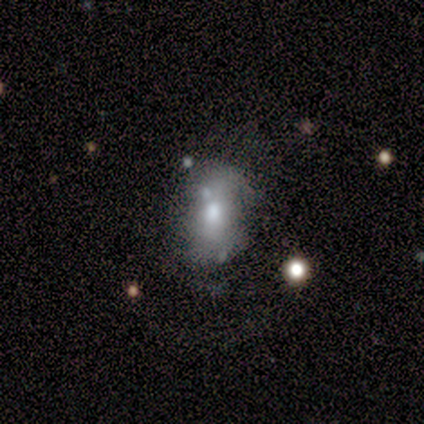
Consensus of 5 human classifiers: featured or disk 60%, smooth 40%, star or artifact 0%. Down the decision tree: edge-on disk — no (100%); bar — no (67%); spiral arms — no (100%); bulge size — moderate (67%); merging — none (40%, tied with minor disturbance).